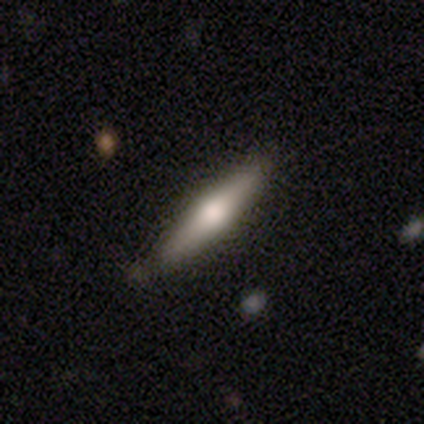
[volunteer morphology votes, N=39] featured or disk 54%, smooth 41%, star or artifact 5%. Down the decision tree: edge-on disk — yes (95%); edge-on bulge — rounded (95%); merging — none (86%).